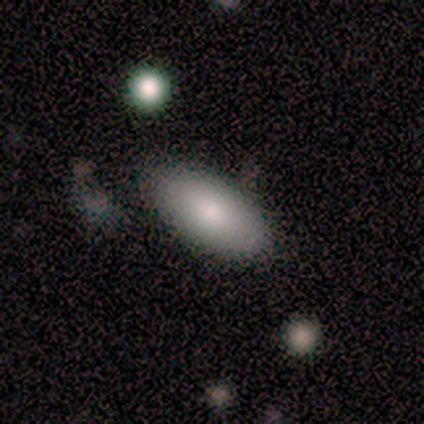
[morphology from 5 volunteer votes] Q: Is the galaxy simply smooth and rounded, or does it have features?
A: smooth — 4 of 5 (80%).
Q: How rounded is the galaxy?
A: in between — 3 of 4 (75%).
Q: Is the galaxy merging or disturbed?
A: none — 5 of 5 (100%).